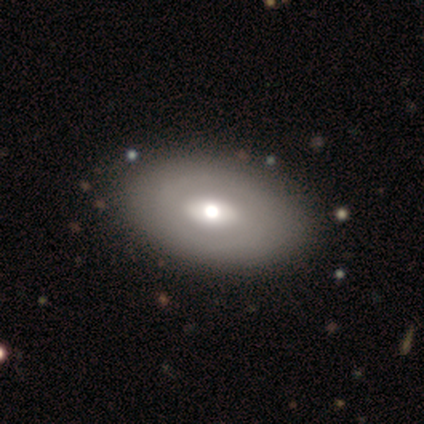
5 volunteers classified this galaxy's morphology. This appears to be a featured or disk galaxy (60%) with a strong bar (67%), no spiral arms (100%) and a moderate central bulge (100%). Merging: none (100%).